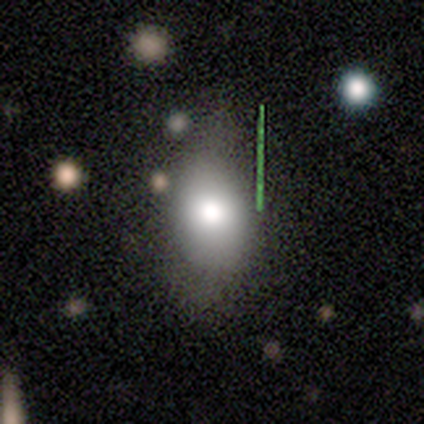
Overall: smooth (89%). How rounded: in between (88%). Merging: none (56%; minor disturbance 33%).